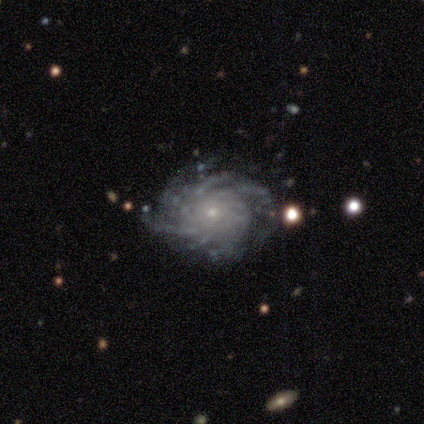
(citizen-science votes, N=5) Overall: featured or disk (100%). Edge-on disk: no (100%). Bar: no (100%). Spiral arms: yes (100%). Spiral arm count: more than 4 (60%; can't tell 40%). Spiral winding: medium (60%; tight 40%). Bulge size: small (100%). Merging: none (100%).